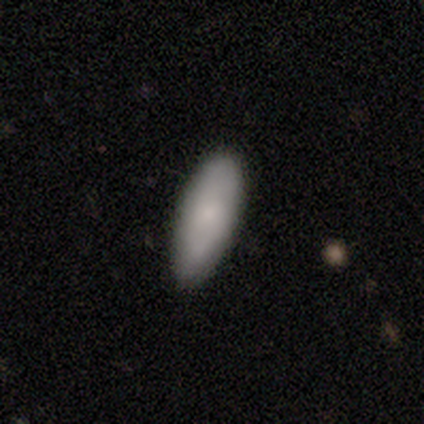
This appears to be a smooth galaxy with no disk features (88%) that is in between round and cigar-shaped (63%). Merging: none (78%).